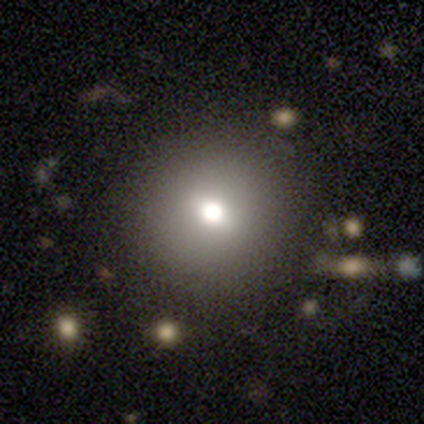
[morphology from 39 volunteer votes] A smooth galaxy with no disk features (67%) that is round (92%). Merging: none (87%).